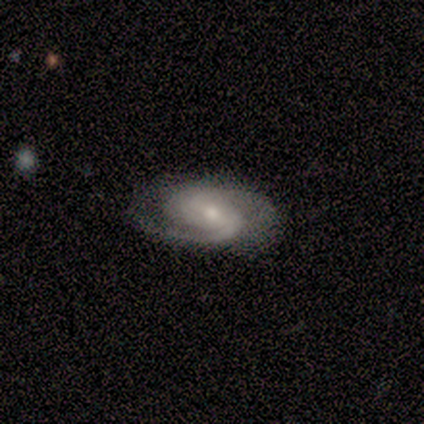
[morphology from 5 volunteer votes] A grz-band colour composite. It shows a featured or disk galaxy (80%) with a weak bar (50%), 2 (100%) medium (75%) spiral arms (100%) and a moderate central bulge (75%). Merging: minor disturbance (60%).